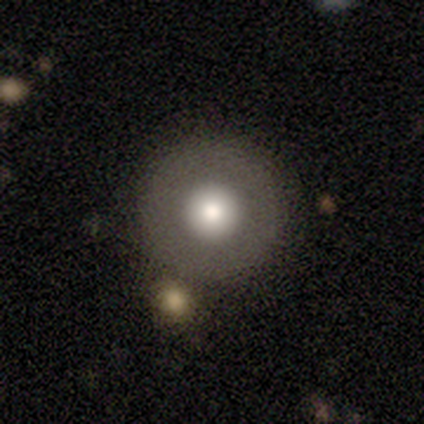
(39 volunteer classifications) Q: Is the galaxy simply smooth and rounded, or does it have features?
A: smooth — 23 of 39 (59%).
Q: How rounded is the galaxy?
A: round — 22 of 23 (96%).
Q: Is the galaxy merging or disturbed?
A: none — 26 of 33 (79%).